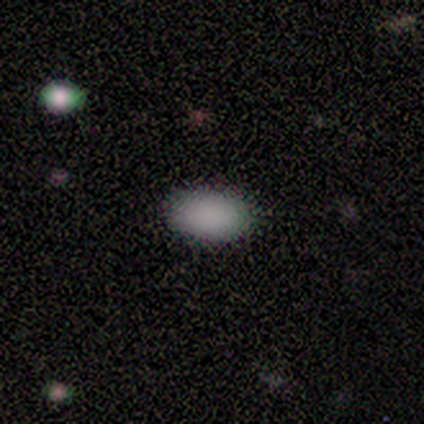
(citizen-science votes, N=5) Q: Smooth or featured?
A: smooth (100%)
Q: How rounded?
A: in between (80%); runner-up: round (20%)
Q: Merging?
A: none (80%); runner-up: minor disturbance (20%)